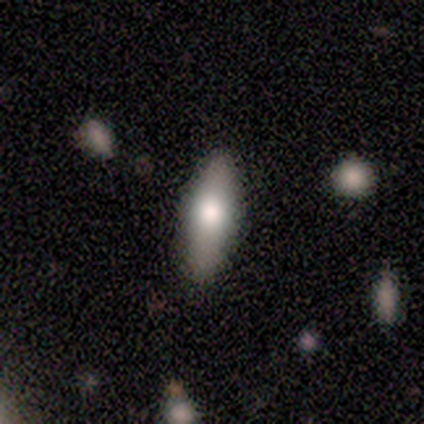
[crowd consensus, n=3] smooth-or-featured: smooth: 67% | featured or disk: 33% | star or artifact: 0%
  how-rounded: in between: 100% | round: 0% | cigar-shaped: 0%
  merging: none: 67% | merger: 33% | minor disturbance: 0% | major disturbance: 0%